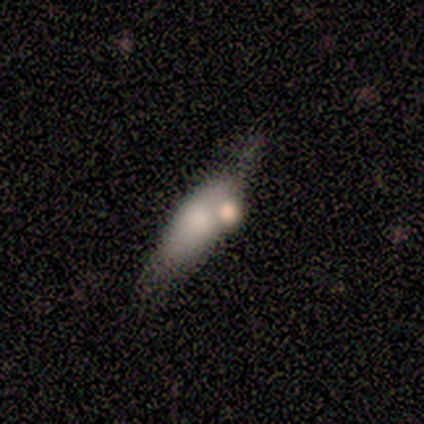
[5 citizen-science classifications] This appears to be a smooth galaxy with no disk features (60%) that is in between round and cigar-shaped (100%). Merging: merger (40%).